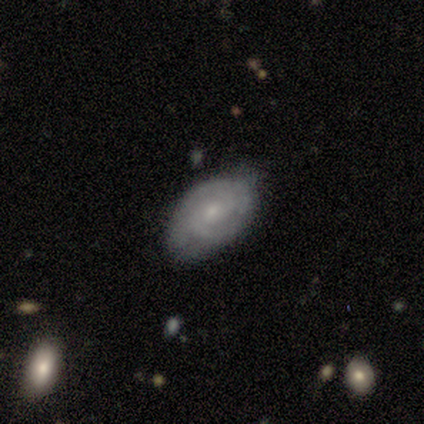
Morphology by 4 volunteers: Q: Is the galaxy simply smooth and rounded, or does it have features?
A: featured or disk — 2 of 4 (50%, tied with star or artifact).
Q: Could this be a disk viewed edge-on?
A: no — 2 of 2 (100%).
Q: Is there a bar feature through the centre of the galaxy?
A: no — 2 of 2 (100%).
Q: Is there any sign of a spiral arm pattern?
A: yes — 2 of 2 (100%).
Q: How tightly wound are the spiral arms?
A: tight — 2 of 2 (100%).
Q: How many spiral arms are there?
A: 2 — 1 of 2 (50%, tied with can't tell).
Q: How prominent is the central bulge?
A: moderate — 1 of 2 (50%, tied with small).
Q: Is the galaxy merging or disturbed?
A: none — 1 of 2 (50%, tied with major disturbance).